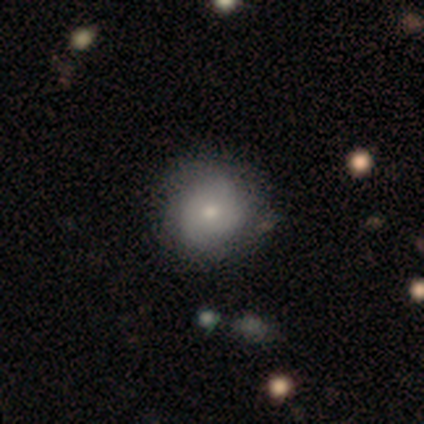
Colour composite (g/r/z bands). It shows a smooth galaxy with no disk features (57%) that is round (100%). Merging: none (57%).